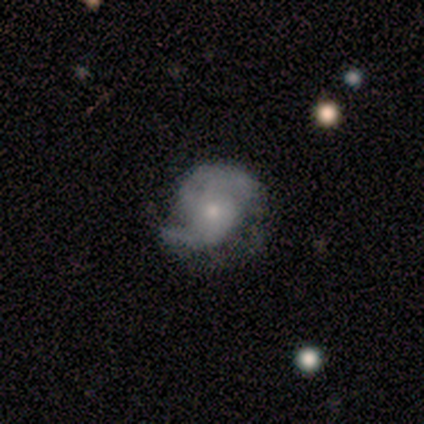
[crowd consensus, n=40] Volunteers were most divided on "spiral winding": medium: 56%, loose: 31%, tight: 14%. More confident: edge-on disk — no (100%); spiral arms — yes (100%); smooth or featured — featured or disk (90%); bar — no (78%); spiral arm count — 2 (75%); bulge size — small (67%); merging — none (56%).